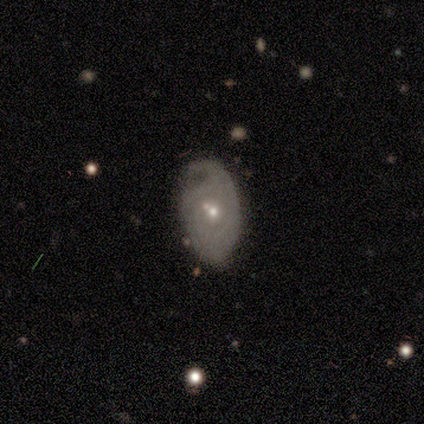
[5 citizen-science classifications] This appears to be a featured or disk galaxy (80%) with no bar (75%), 1 (50%, tied with can't tell) tight (50%, tied with medium) spiral arms (50%, tied with no) and a moderate central bulge (50%, tied with small). Merging: major disturbance (60%).